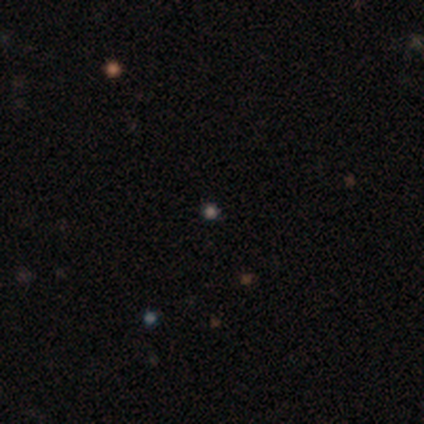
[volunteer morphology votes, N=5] smooth-or-featured: smooth: 80% | star or artifact: 20% | featured or disk: 0%
  how-rounded: round: 100% | in between: 0% | cigar-shaped: 0%
  merging: none: 100% | minor disturbance: 0% | major disturbance: 0% | merger: 0%